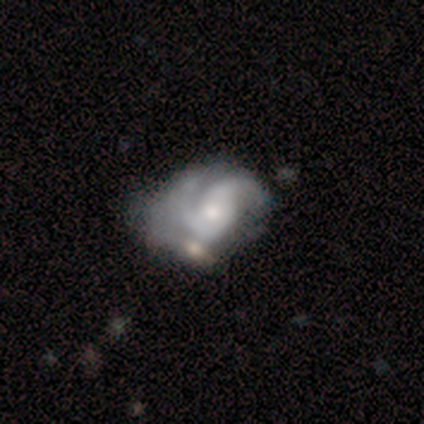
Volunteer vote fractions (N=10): This is clearly a featured or disk galaxy (80%). It is clearly not viewed edge-on (100%). Bar: likely no (75%). Spiral arm pattern: clearly yes (100%). Spiral arm count: likely 2 (75%). Spiral winding: possibly tight (50%). Central bulge: likely moderate (62%). Merging: marginally none (44%).